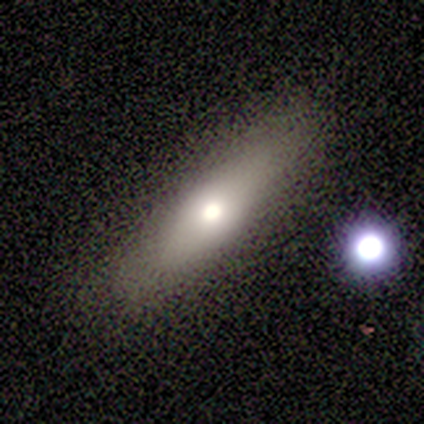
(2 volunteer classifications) Smooth or featured? smooth (100%)
How rounded? in between (50%, tied with cigar-shaped)
Merging? none (100%)